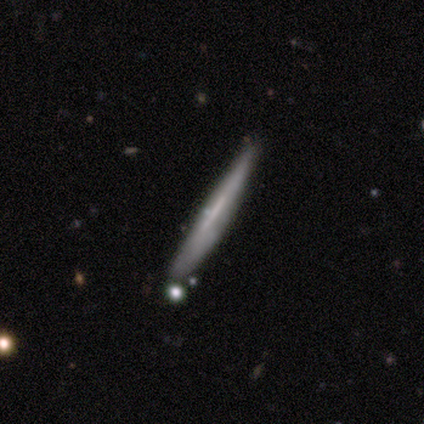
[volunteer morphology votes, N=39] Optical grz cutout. It shows a featured or disk galaxy (62%) viewed edge-on (96%) with no central bulge (65%). Merging: none (89%).